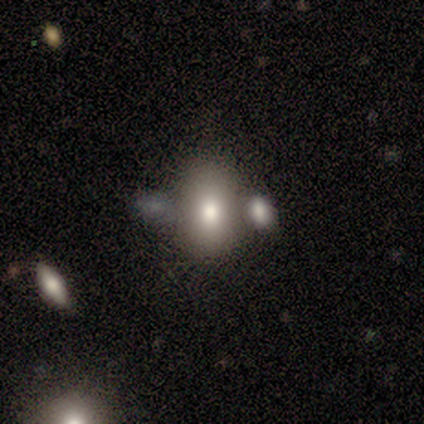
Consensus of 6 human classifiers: Morphology: type=smooth (67%); roundness=in between (75%); merging=merger (60%).